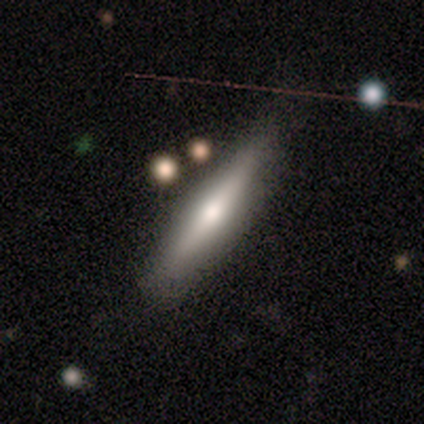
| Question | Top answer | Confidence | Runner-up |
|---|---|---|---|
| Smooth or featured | smooth | 62% | featured or disk (38%) |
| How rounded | cigar-shaped | 100% | — |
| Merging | none | 88% | minor disturbance (12%) |